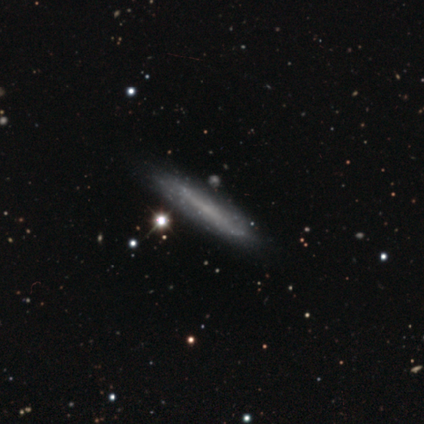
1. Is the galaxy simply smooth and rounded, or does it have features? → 50% smooth (tied), 50% featured or disk (tied), 0% star or artifact.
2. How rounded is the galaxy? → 100% cigar-shaped, 0% round, 0% in between.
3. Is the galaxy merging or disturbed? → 100% none, 0% minor disturbance, 0% major disturbance, 0% merger.